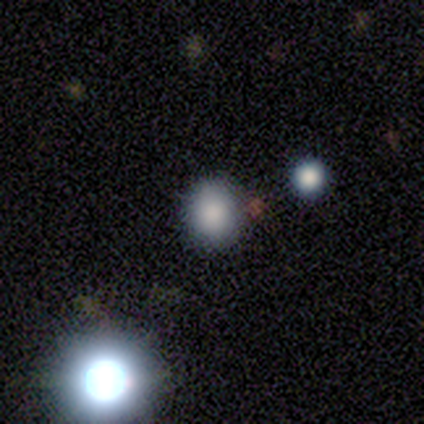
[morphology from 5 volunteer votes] smooth-or-featured: star or artifact: 60% | smooth: 40% | featured or disk: 0%